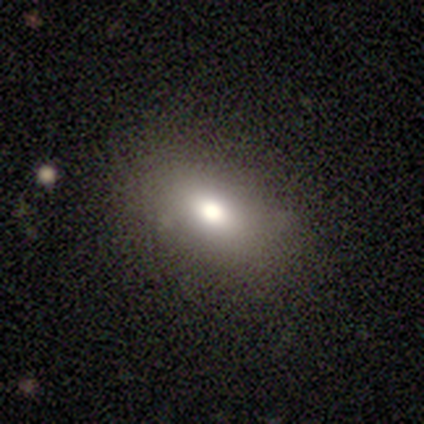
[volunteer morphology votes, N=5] Volunteers were most divided on "how rounded": in between: 67%, cigar-shaped: 33%, round: 0%. More confident: merging — none (100%); smooth or featured — smooth (60%).